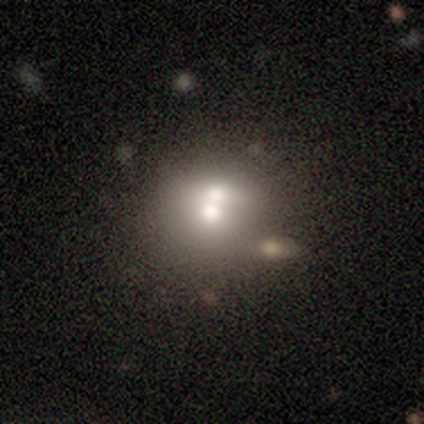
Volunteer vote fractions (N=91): This appears to be a smooth galaxy with no disk features (55%) that is round (80%). Merging: merger (62%).